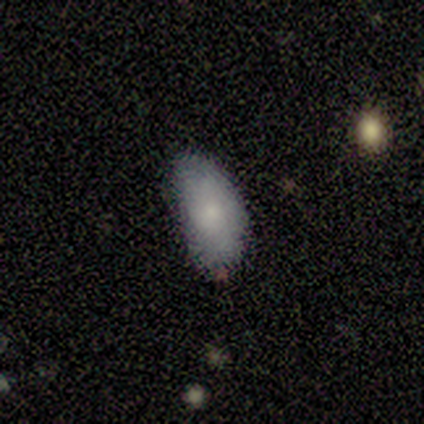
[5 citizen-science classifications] Volunteers were most divided on "merging" (2-way tie): none: 40%, minor disturbance: 40%, major disturbance: 20%, merger: 0%. More confident: smooth or featured — smooth (100%); how rounded — in between (100%).